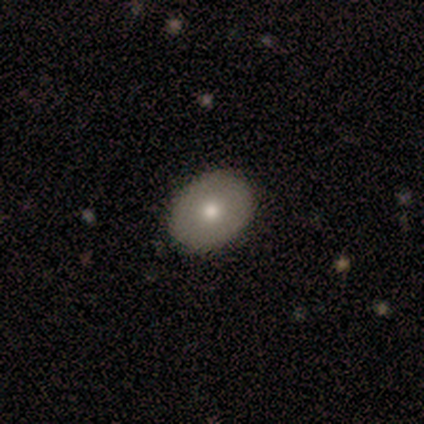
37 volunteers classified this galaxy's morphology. smooth-or-featured: smooth: 65% | featured or disk: 35% | star or artifact: 0%
  how-rounded: in between: 71% | round: 29% | cigar-shaped: 0%
  merging: none: 65% | minor disturbance: 3% | major disturbance: 0% | merger: 0%